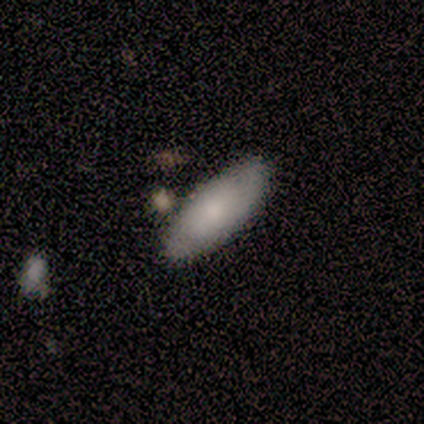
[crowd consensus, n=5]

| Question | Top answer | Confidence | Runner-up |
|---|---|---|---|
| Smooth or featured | smooth | 60% | featured or disk (40%) |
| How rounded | in between | 100% | — |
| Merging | none | 80% | minor disturbance (20%) |